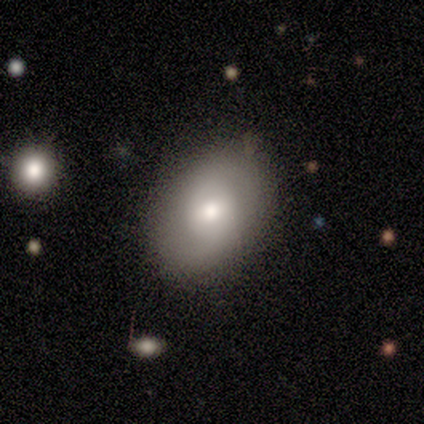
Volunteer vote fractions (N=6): Morphology: type=smooth (83%); roundness=in between (60%); merging=none (67%).